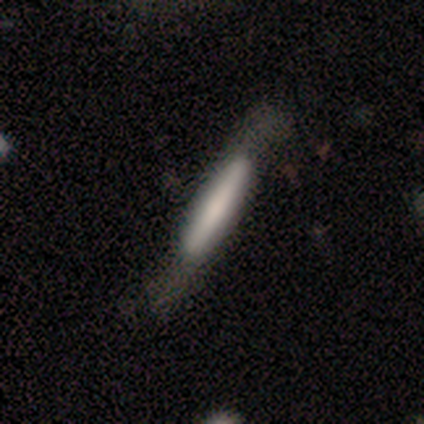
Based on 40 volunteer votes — Smooth or featured?
  - smooth: 50% *
  - featured or disk: 42%
  - star or artifact: 8%
How rounded?
  - cigar-shaped: 100% *
  - round: 0%
  - in between: 0%
Merging?
  - none: 41% *
  - major disturbance: 11%
  - merger: 5%
  - minor disturbance: 3%